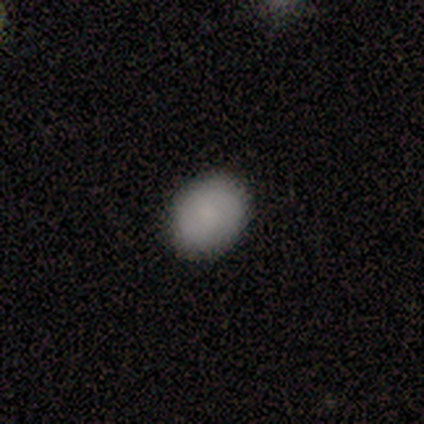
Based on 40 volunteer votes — A smooth galaxy with no disk features (90%) that is round (50%, tied with in between). Merging: none (87%).